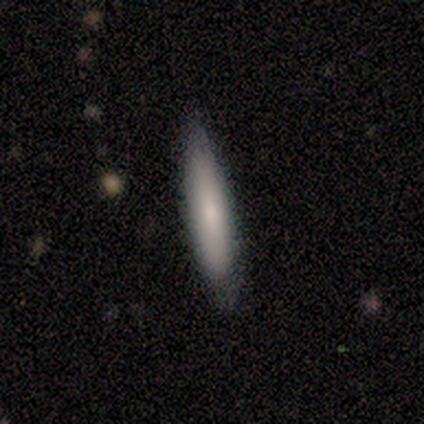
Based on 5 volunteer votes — Smooth or featured: smooth — 100%
How rounded: cigar-shaped — 100%
Merging: none — 60% (minor disturbance — 40%)